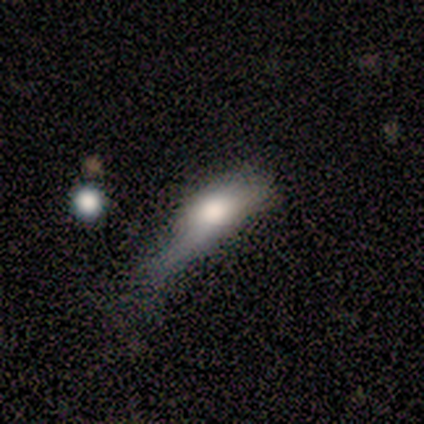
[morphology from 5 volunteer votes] Smooth or featured?
  - smooth: 100% *
  - featured or disk: 0%
  - star or artifact: 0%
How rounded?
  - in between: 100% *
  - round: 0%
  - cigar-shaped: 0%
Merging?
  - minor disturbance: 80% *
  - major disturbance: 20%
  - none: 0%
  - merger: 0%